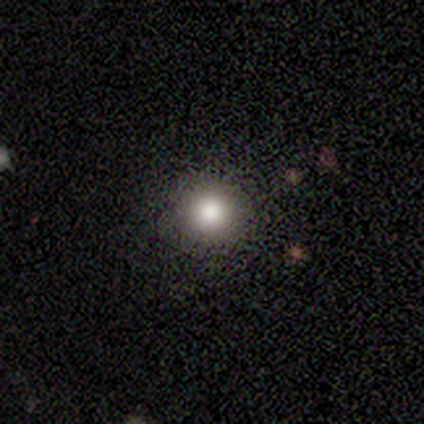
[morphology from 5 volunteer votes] A smooth galaxy with no disk features (80%) that is round (75%).

Vote fractions:
- Smooth or featured? smooth: 80% / featured or disk: 20% / star or artifact: 0%
- How rounded? round: 75% / in between: 25% / cigar-shaped: 0%
- Merging? none: 80% / minor disturbance: 20% / major disturbance: 0% / merger: 0%